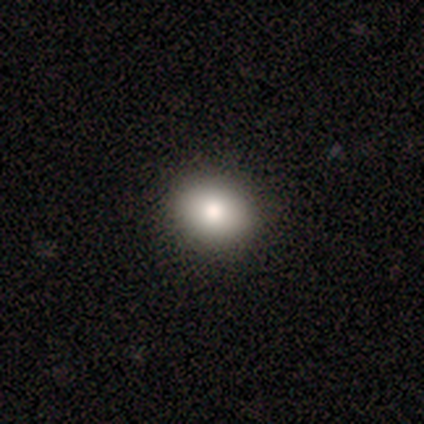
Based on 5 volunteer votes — Overall: smooth (100%). How rounded: round (80%). Merging: none (100%).